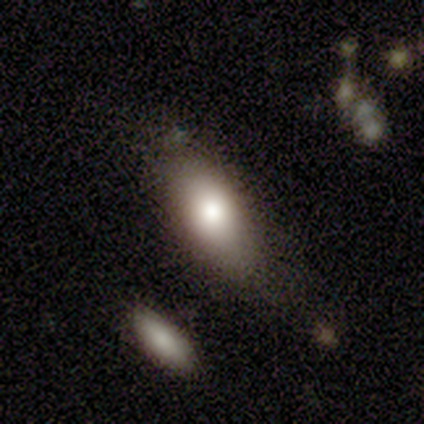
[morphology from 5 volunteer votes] A smooth galaxy with no disk features (100%) that is in between round and cigar-shaped (100%). Merging: none (80%).